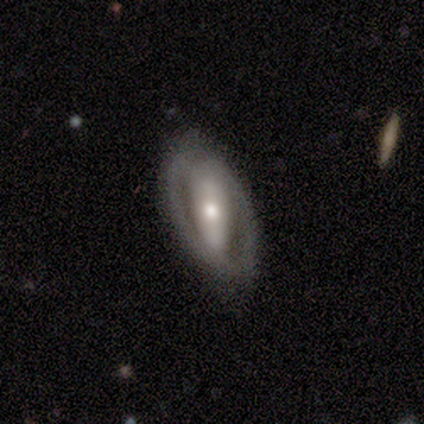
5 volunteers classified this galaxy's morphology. Smooth or featured? 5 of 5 (100%) said featured or disk. Edge-on disk? 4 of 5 (80%) said no. Bar? 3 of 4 (75%) said strong. Spiral arms? 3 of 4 (75%) said no. Bulge size? 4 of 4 (100%) said moderate. Merging? 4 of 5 (80%) said none.